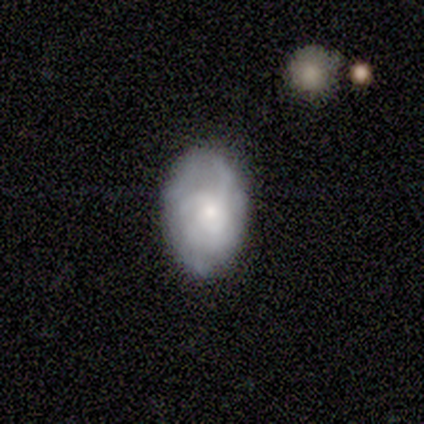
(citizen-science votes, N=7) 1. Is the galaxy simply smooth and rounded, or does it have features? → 71% featured or disk, 29% smooth, 0% star or artifact.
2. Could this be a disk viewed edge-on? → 100% no, 0% yes.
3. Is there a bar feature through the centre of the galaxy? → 100% no, 0% strong, 0% weak.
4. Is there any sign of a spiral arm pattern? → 100% yes, 0% no.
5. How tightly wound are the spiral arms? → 40% medium (tied), 40% loose (tied), 20% tight.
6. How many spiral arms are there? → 60% 3, 40% can't tell, 0% 1, 0% 2, 0% 4, 0% more than 4.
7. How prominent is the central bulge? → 40% moderate (tied), 40% small (tied), 20% large, 0% dominant, 0% none.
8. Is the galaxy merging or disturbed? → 100% none, 0% minor disturbance, 0% major disturbance, 0% merger.